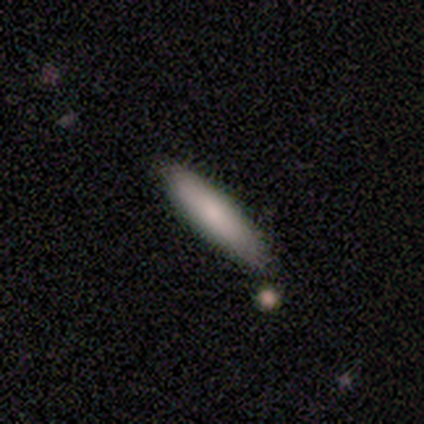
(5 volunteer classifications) A smooth galaxy with no disk features (100%) that is cigar-shaped (80%). Merging: none (100%).